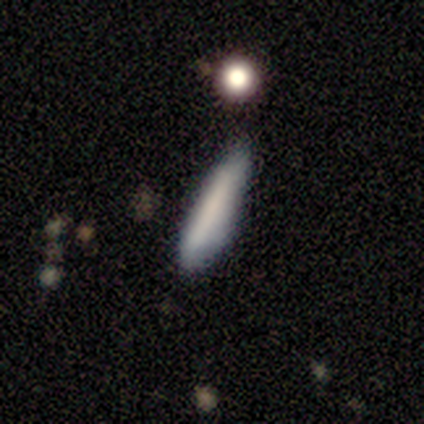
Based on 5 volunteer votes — Q: Smooth or featured?
A: smooth (80%); runner-up: featured or disk (20%)
Q: How rounded?
A: cigar-shaped (100%)
Q: Merging?
A: minor disturbance (60%); runner-up: none (40%)